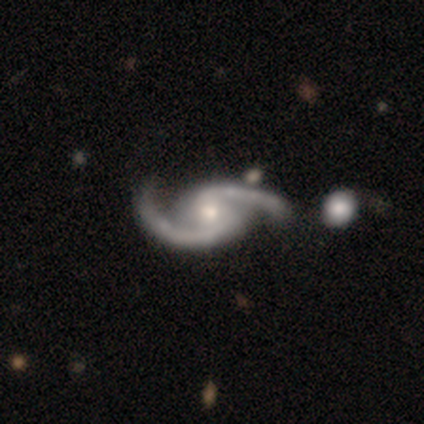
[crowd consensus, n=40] Q: Smooth or featured?
A: featured or disk (95%); runner-up: star or artifact (5%)
Q: Edge-on disk?
A: no (92%); runner-up: yes (8%)
Q: Bar?
A: weak (49%); runner-up: no (43%)
Q: Spiral arms?
A: yes (100%)
Q: Spiral winding?
A: medium (40%); runner-up: loose (34%)
Q: Spiral arm count?
A: 2 (100%)
Q: Bulge size?
A: moderate (54%); runner-up: small (34%)
Q: Merging?
A: none (58%); runner-up: merger (24%)